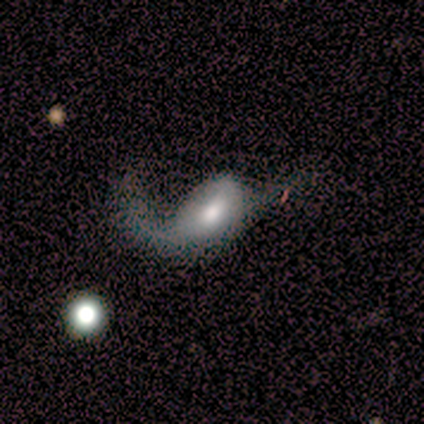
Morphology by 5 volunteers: Overall: featured or disk (100%). Edge-on disk: no (100%). Bar: no (60%; weak 40%). Spiral arms: yes (80%). Spiral arm count: 1 (50%, tied with 2). Spiral winding: loose (100%). Bulge size: moderate (80%). Merging: none (40%, tied with minor disturbance).